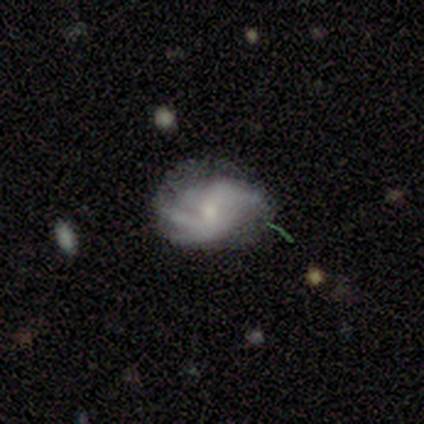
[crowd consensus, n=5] smooth_or_featured: featured or disk (p=1.00)
disk_edge_on: no (p=1.00)
bar: weak (p=0.40) [tied with: no p=0.40]
has_spiral_arms: yes (p=1.00)
spiral_winding: medium (p=0.60) [alt: tight p=0.20]
spiral_arm_count: can't tell (p=0.60) [alt: 1 p=0.20]
bulge_size: moderate (p=0.60) [alt: small p=0.20]
merging: none (p=0.60) [alt: minor disturbance p=0.40]